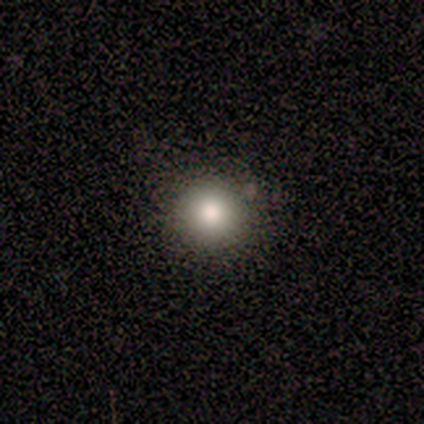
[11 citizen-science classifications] Morphology: type=smooth (82%); roundness=round (89%); merging=none (73%).